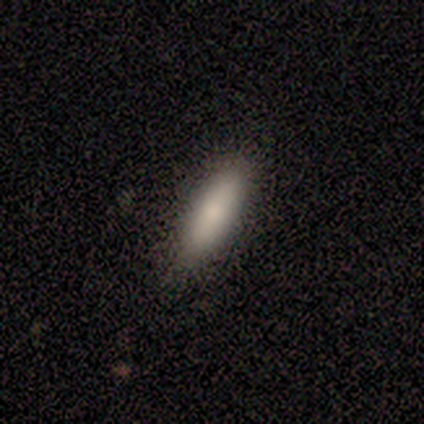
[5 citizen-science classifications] Smooth or featured? smooth (80%)
How rounded? in between (50%, tied with cigar-shaped)
Merging? none (80%)